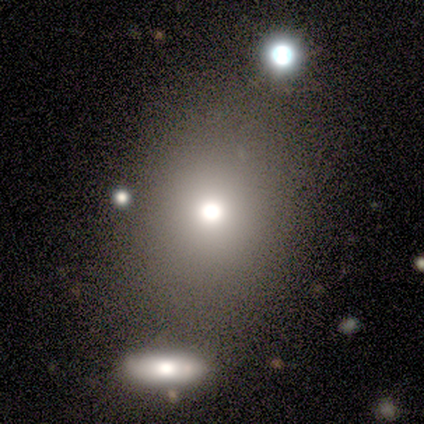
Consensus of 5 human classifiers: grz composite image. It shows a smooth galaxy with no disk features (80%) that is round (75%). Merging: none (100%).